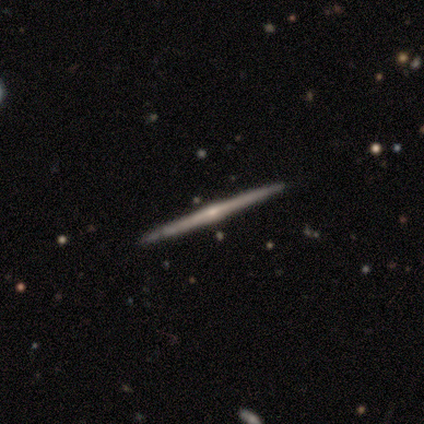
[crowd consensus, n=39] smooth_or_featured: featured or disk (p=0.85) [alt: smooth p=0.08]
disk_edge_on: yes (p=1.00)
edge_on_bulge: rounded (p=0.67) [alt: none p=0.30]
merging: none (p=0.94) [alt: minor disturbance p=0.03]